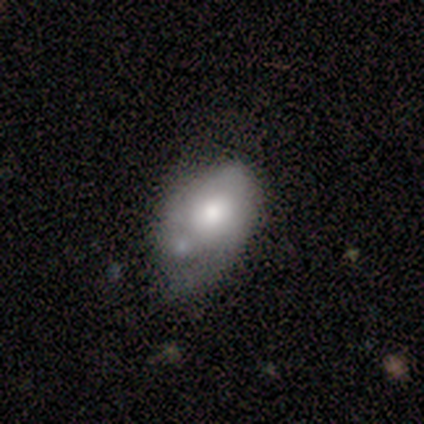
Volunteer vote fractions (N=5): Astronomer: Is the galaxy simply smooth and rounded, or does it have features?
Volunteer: smooth — 60% (runner-up: featured or disk, 40%).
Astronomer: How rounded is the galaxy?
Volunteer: in between — 100%.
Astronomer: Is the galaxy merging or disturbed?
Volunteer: major disturbance — 60% (runner-up: minor disturbance, 40%).